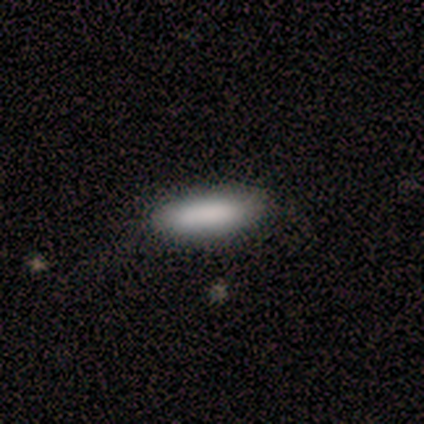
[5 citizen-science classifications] This appears to be a smooth galaxy with no disk features (80%) that is in between round and cigar-shaped (50%, tied with cigar-shaped). Merging: none (80%).